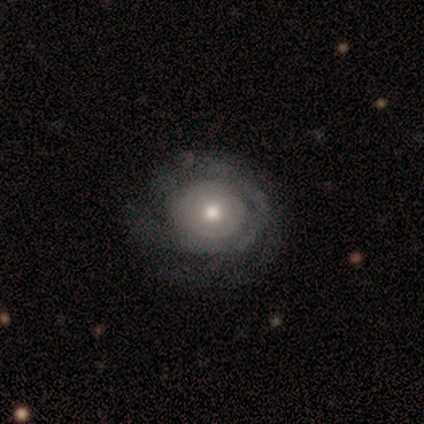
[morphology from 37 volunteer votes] Q: Smooth or featured?
A: featured or disk (81%); runner-up: smooth (14%)
Q: Edge-on disk?
A: no (93%); runner-up: yes (7%)
Q: Bar?
A: no (93%); runner-up: weak (7%)
Q: Spiral arms?
A: yes (79%); runner-up: no (21%)
Q: Spiral winding?
A: tight (73%); runner-up: medium (14%)
Q: Spiral arm count?
A: can't tell (64%); runner-up: 1 (9%)
Q: Bulge size?
A: moderate (68%); runner-up: small (21%)
Q: Merging?
A: none (86%); runner-up: minor disturbance (6%)